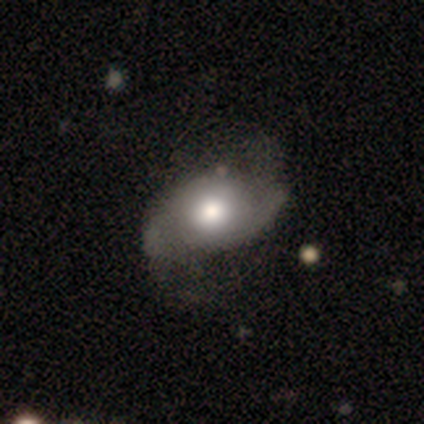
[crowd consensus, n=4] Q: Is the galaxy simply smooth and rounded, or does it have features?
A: featured or disk — 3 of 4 (75%).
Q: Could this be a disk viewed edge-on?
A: no — 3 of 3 (100%).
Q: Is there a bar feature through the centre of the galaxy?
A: no — 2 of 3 (67%).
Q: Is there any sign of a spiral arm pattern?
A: yes — 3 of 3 (100%).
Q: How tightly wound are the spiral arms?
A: medium — 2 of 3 (67%).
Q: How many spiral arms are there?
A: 2 — 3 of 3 (100%).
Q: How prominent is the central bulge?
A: moderate — 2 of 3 (67%).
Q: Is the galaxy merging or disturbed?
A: none — 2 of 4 (50%).